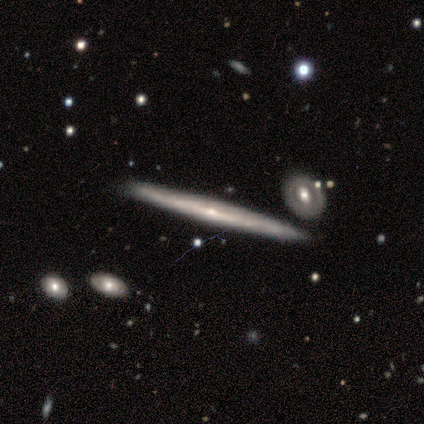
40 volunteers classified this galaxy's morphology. A featured or disk galaxy (88%) viewed edge-on (91%) with a rounded central bulge (56%). Merging: none (88%).